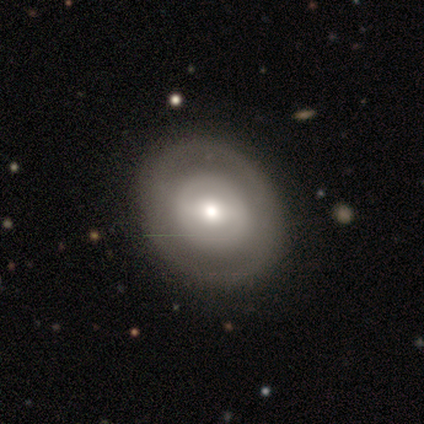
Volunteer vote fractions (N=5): Overall: featured or disk (60%; smooth 20%). Edge-on disk: no (100%). Bar: no (67%; strong 33%). Spiral arms: no (100%). Bulge size: large (33%, tied with moderate and small). Merging: none (75%).